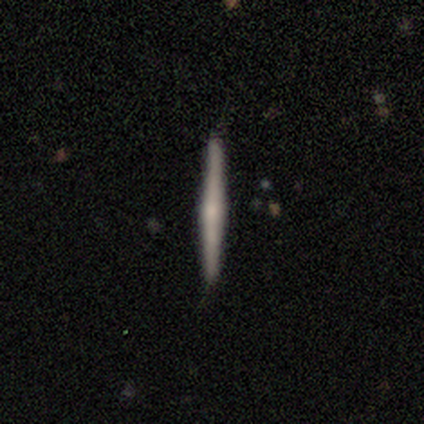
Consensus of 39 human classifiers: Q: Smooth or featured?
A: featured or disk (72%); runner-up: smooth (23%)
Q: Edge-on disk?
A: yes (96%); runner-up: no (4%)
Q: Edge-on bulge?
A: rounded (59%); runner-up: none (30%)
Q: Merging?
A: none (95%); runner-up: minor disturbance (5%)